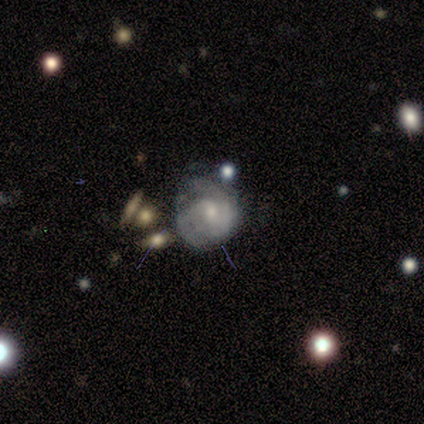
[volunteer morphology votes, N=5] Smooth or featured? 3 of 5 (60%) said featured or disk. Edge-on disk? 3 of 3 (100%) said no. Bar? 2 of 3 (67%) said weak. Spiral arms? 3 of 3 (100%) said yes. Spiral winding? 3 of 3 (100%) said tight. Spiral arm count? 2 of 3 (67%) said 2. Bulge size? 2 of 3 (67%) said moderate. Merging? 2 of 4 (50%) said none.